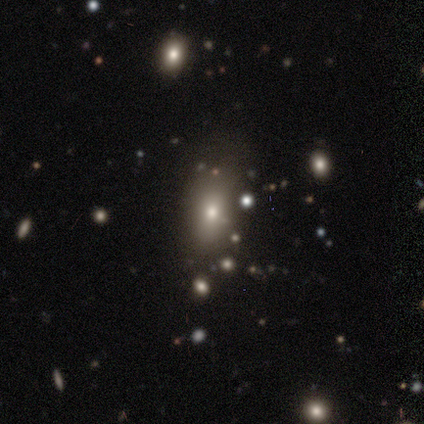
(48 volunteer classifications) This is likely a smooth galaxy (73%). How rounded: likely in between (74%). Merging: likely none (66%).